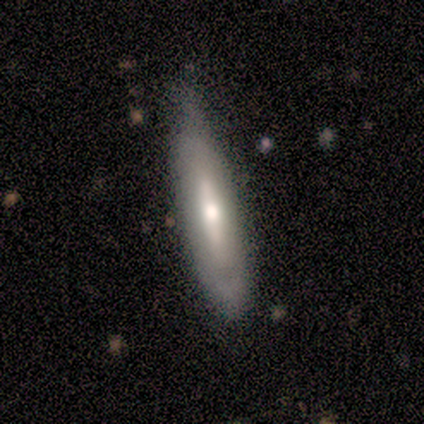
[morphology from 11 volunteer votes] This appears to be a smooth galaxy with no disk features (64%) that is cigar-shaped (86%). Merging: minor disturbance (55%).